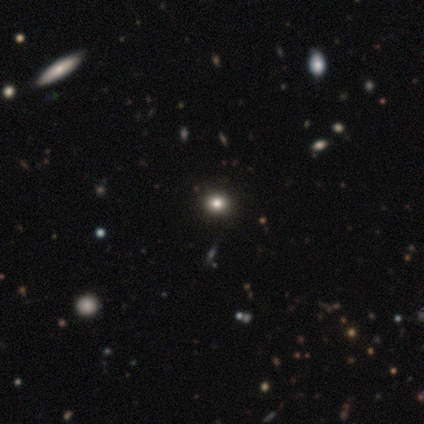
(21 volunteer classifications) A smooth galaxy with no disk features (71%) that is round (73%). Merging: none (94%).